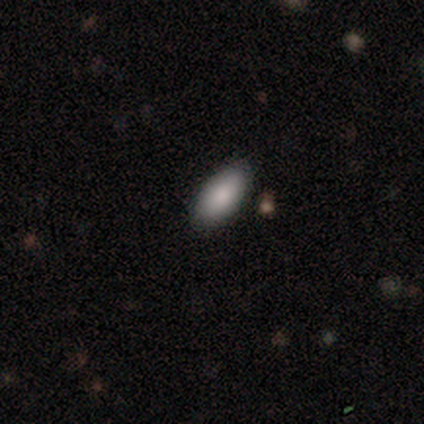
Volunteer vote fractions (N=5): Smooth or featured? smooth (80%)
How rounded? in between (100%)
Merging? none (100%)